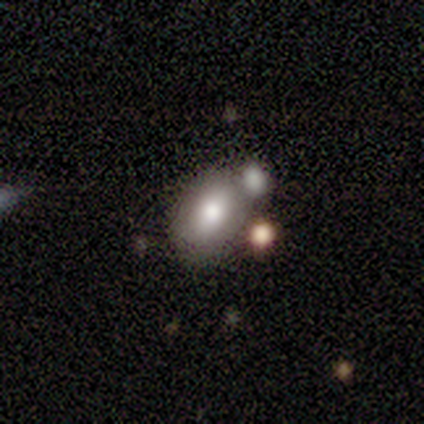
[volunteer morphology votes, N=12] Smooth or featured: smooth — 75% (featured or disk — 17%)
How rounded: in between — 89% (round — 11%)
Merging: none — 45% (tied with merger — 45%)